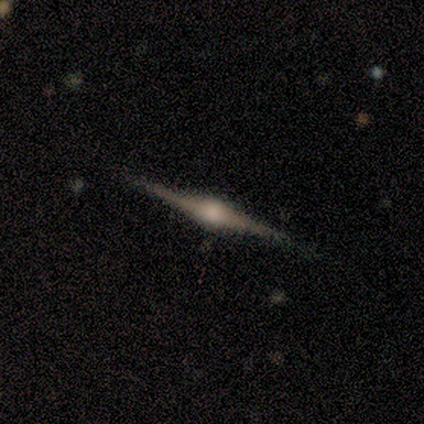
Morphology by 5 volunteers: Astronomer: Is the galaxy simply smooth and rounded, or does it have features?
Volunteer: featured or disk — 100%.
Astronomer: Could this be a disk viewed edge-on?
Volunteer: yes — 80%.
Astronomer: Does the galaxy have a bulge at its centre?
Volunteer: rounded — 100%.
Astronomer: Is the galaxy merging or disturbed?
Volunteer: none — 80%.